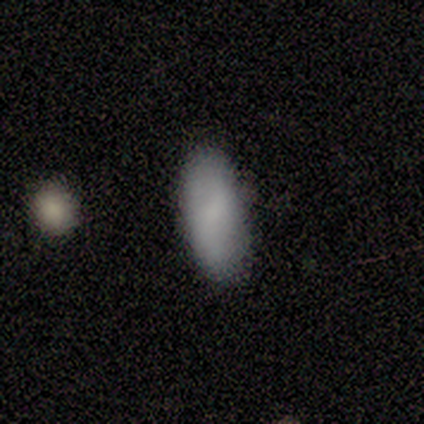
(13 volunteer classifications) Smooth or featured?
  - smooth: 69% *
  - featured or disk: 23%
  - star or artifact: 8%
How rounded?
  - in between: 89% *
  - cigar-shaped: 11%
  - round: 0%
Merging?
  - none: 75% *
  - major disturbance: 17%
  - minor disturbance: 8%
  - merger: 0%